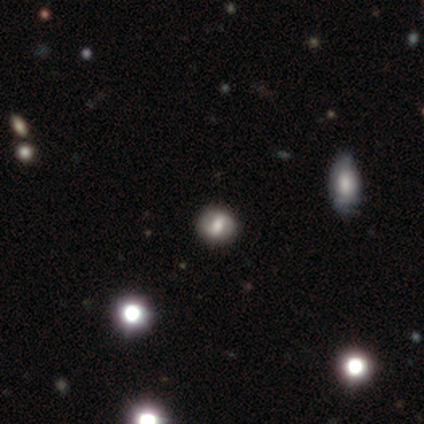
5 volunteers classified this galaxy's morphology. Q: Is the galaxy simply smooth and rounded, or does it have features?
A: smooth — 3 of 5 (60%).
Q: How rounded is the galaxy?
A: round — 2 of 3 (67%).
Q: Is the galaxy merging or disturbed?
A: none — 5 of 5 (100%).